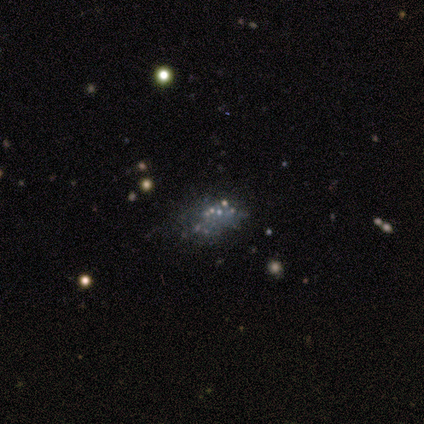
This is likely a star or artifact rather than a galaxy (60%).